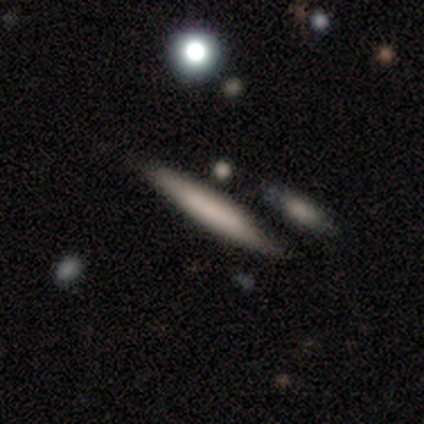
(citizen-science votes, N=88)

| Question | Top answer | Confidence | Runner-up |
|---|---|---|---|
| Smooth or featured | smooth | 67% | featured or disk (27%) |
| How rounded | cigar-shaped | 98% | in between (2%) |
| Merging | none | 81% | minor disturbance (10%) |